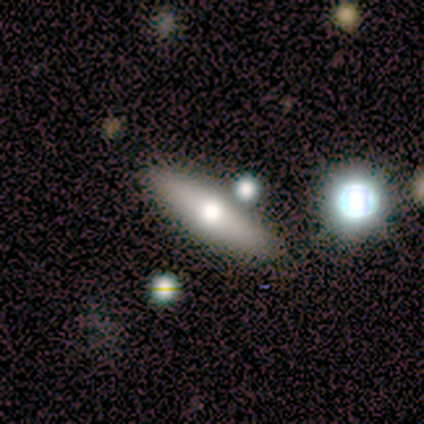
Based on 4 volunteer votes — smooth 50% (tied), featured or disk 50% (tied), star or artifact 0%. Down the decision tree: how rounded — in between (50%, tied with cigar-shaped); merging — none (75%).